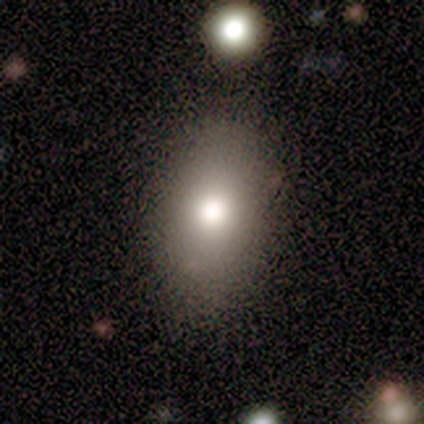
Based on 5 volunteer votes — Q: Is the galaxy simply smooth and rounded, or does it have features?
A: smooth — 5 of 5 (100%).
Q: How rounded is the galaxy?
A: in between — 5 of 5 (100%).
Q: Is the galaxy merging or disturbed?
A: none — 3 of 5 (60%).